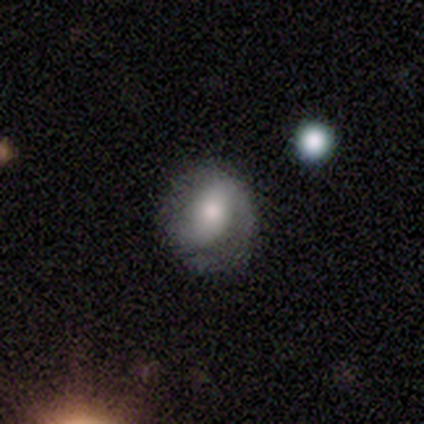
Q: Smooth or featured?
A: featured or disk (59%); runner-up: smooth (28%)
Q: Edge-on disk?
A: no (100%)
Q: Bar?
A: no (48%); runner-up: weak (35%)
Q: Spiral arms?
A: yes (78%); runner-up: no (22%)
Q: Spiral winding?
A: tight (44%); runner-up: medium (39%)
Q: Spiral arm count?
A: 2 (72%); runner-up: can't tell (17%)
Q: Bulge size?
A: moderate (65%); runner-up: small (17%)
Q: Merging?
A: none (74%); runner-up: minor disturbance (21%)